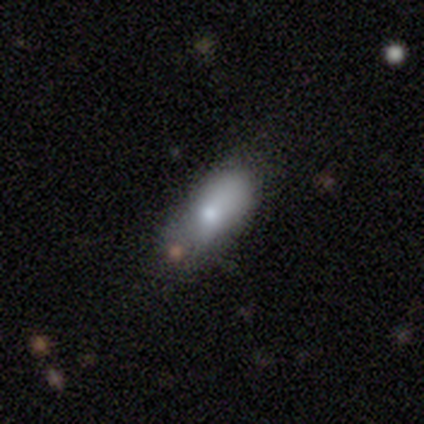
Q: Smooth or featured?
A: smooth (60%); runner-up: featured or disk (40%)
Q: How rounded?
A: in between (100%)
Q: Merging?
A: minor disturbance (60%); runner-up: none (20%)